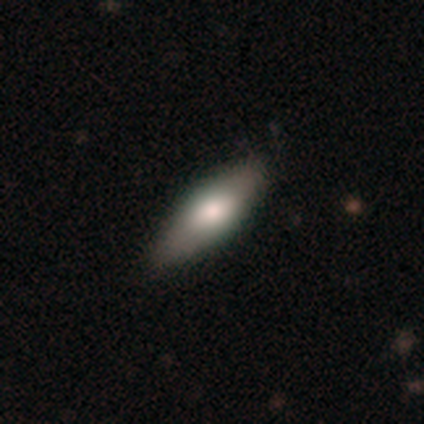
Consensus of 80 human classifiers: smooth-or-featured: smooth: 75% | featured or disk: 22% | star or artifact: 2%
  how-rounded: in between: 75% | cigar-shaped: 25% | round: 0%
  merging: none: 47% | minor disturbance: 4% | merger: 4% | major disturbance: 0%